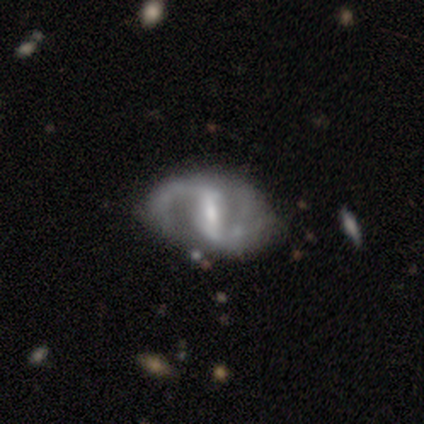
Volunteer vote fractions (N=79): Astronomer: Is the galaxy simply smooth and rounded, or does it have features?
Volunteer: featured or disk — 90%.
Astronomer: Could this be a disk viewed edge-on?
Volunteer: no — 99%.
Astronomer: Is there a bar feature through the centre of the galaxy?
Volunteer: strong — 61%.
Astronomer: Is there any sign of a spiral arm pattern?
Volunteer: yes — 97%.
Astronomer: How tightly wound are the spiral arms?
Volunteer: loose — 56% (runner-up: medium, 38%).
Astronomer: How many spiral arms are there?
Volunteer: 2 — 90%.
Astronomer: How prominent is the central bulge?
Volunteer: moderate — 51% (runner-up: small, 41%).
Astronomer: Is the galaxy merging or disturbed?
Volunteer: none — 31% (runner-up: minor disturbance, 17%).